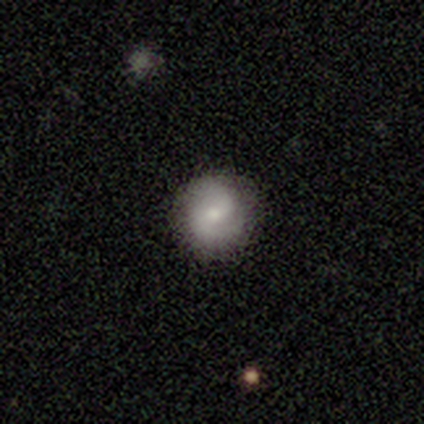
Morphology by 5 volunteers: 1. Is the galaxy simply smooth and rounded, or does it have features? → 80% smooth, 20% featured or disk, 0% star or artifact.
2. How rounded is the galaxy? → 100% round, 0% in between, 0% cigar-shaped.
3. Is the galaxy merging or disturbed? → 100% none, 0% minor disturbance, 0% major disturbance, 0% merger.